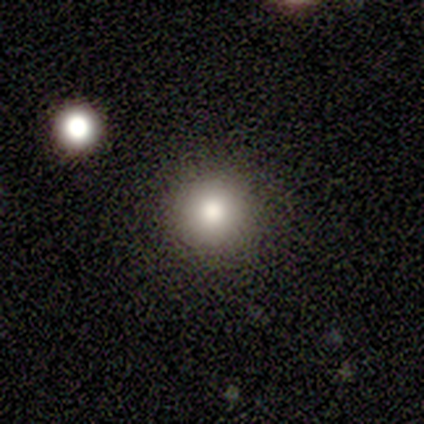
smooth-or-featured: smooth: 100% | featured or disk: 0% | star or artifact: 0%
  how-rounded: round: 100% | in between: 0% | cigar-shaped: 0%
  merging: none: 80% | merger: 20% | minor disturbance: 0% | major disturbance: 0%